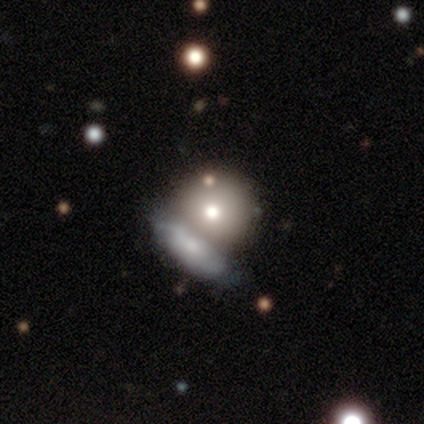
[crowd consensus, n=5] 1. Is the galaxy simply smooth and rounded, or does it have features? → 60% smooth, 20% featured or disk, 20% star or artifact.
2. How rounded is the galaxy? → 100% round, 0% in between, 0% cigar-shaped.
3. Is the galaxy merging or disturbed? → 50% merger, 25% none, 25% major disturbance, 0% minor disturbance.